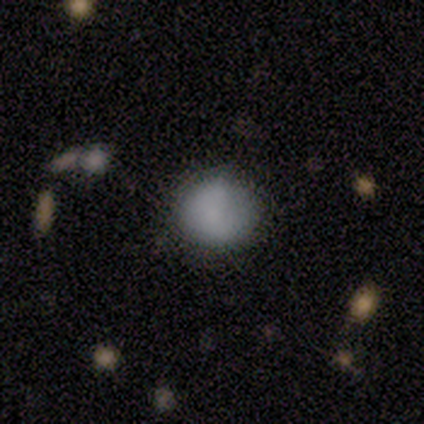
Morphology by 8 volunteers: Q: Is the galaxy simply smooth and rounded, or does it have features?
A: smooth — 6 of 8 (75%).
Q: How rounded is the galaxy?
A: round — 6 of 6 (100%).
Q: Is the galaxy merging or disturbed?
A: none — 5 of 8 (62%).